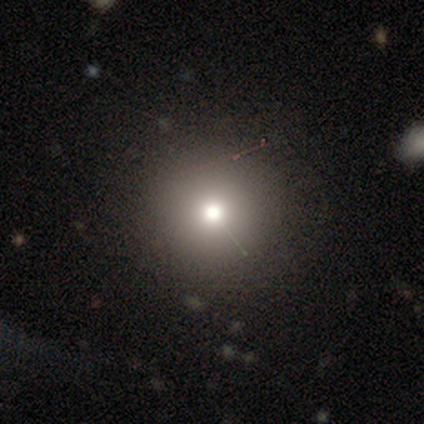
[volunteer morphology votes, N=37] Q: Smooth or featured?
A: smooth (65%); runner-up: star or artifact (27%)
Q: How rounded?
A: round (100%)
Q: Merging?
A: none (96%); runner-up: major disturbance (4%)